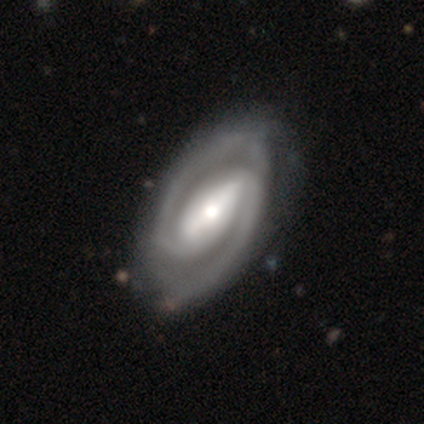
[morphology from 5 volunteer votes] Smooth or featured: featured or disk — 100%
Edge-on disk: no — 100%
Bar: strong — 100%
Spiral arms: yes — 100%
Spiral winding: tight — 80% (medium — 20%)
Spiral arm count: 2 — 100%
Bulge size: moderate — 100%
Merging: none — 60% (minor disturbance — 40%)